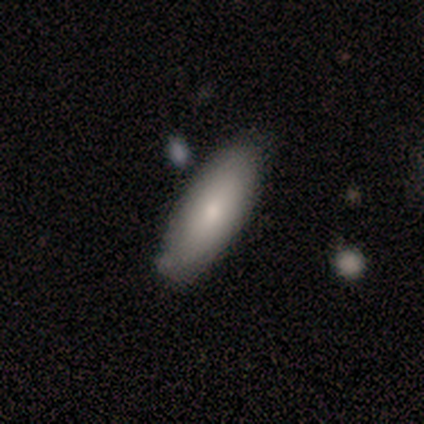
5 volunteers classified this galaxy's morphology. Q: Smooth or featured?
A: smooth (100%)
Q: How rounded?
A: cigar-shaped (60%); runner-up: in between (40%)
Q: Merging?
A: none (40%); tied with: minor disturbance (40%)